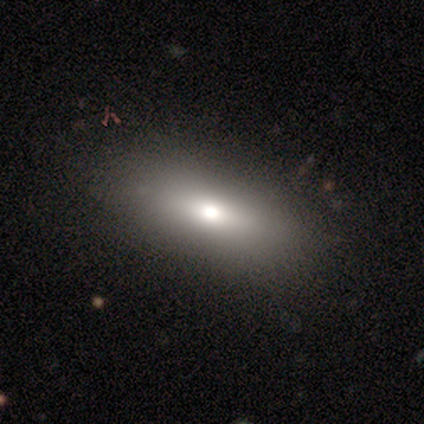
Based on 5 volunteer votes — Morphology: type=smooth (80%); roundness=in between (75%); merging=none (50%, tied with minor disturbance).